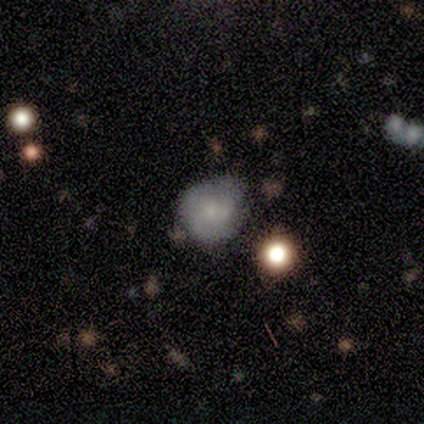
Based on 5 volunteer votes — Q: Smooth or featured?
A: smooth (60%); runner-up: featured or disk (20%)
Q: How rounded?
A: round (67%); runner-up: in between (33%)
Q: Merging?
A: none (25%); tied with: minor disturbance (25%); major disturbance (25%); merger (25%)